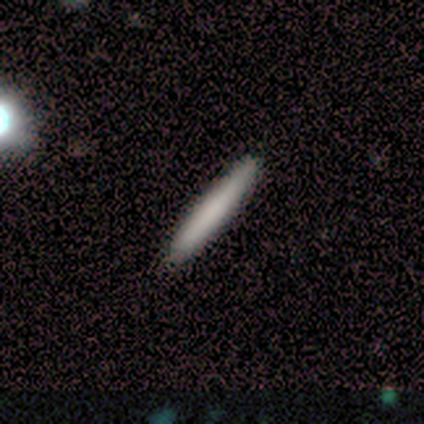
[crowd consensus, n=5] Volunteers were most divided on "merging": none: 80%, minor disturbance: 20%, major disturbance: 0%, merger: 0%. More confident: smooth or featured — smooth (100%); how rounded — cigar-shaped (100%).